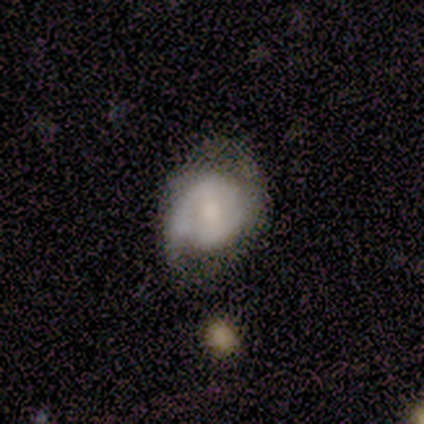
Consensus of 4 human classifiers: Q: Smooth or featured?
A: featured or disk (100%)
Q: Edge-on disk?
A: no (100%)
Q: Bar?
A: weak (50%); tied with: no (50%)
Q: Spiral arms?
A: yes (75%); runner-up: no (25%)
Q: Spiral winding?
A: tight (67%); runner-up: medium (33%)
Q: Spiral arm count?
A: can't tell (67%); runner-up: 2 (33%)
Q: Bulge size?
A: small (75%); runner-up: moderate (25%)
Q: Merging?
A: minor disturbance (75%); runner-up: none (25%)